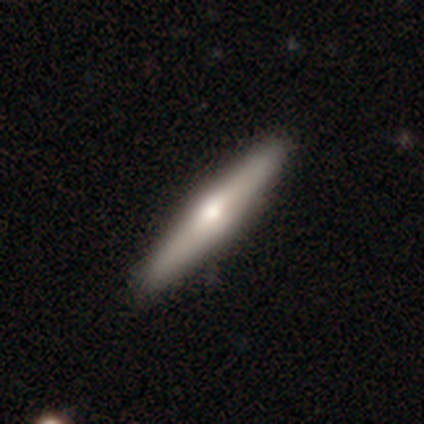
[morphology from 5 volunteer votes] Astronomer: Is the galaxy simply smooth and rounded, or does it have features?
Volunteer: featured or disk — 80%.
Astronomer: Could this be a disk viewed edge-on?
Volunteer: yes — 100%.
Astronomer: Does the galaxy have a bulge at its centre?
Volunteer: rounded — 100%.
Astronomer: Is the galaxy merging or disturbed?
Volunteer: none — 100%.